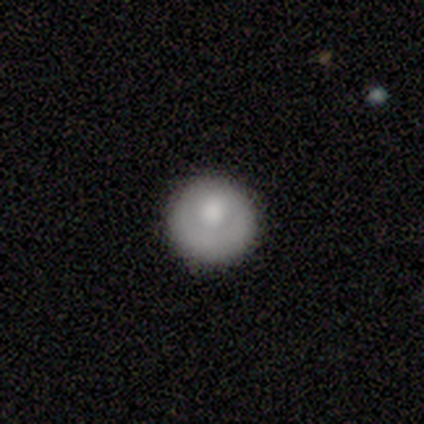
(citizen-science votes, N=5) Q: Smooth or featured?
A: smooth (80%); runner-up: featured or disk (20%)
Q: How rounded?
A: round (100%)
Q: Merging?
A: none (100%)